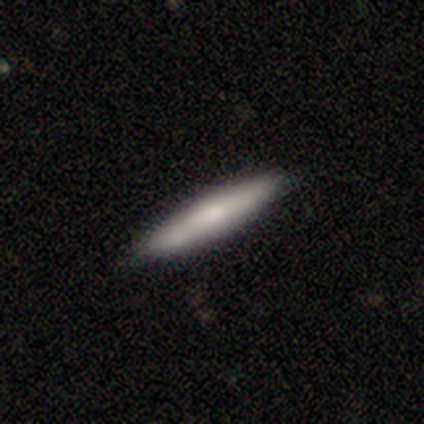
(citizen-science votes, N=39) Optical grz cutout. It shows a smooth galaxy with no disk features (77%) that is cigar-shaped (83%). Merging: none (68%).